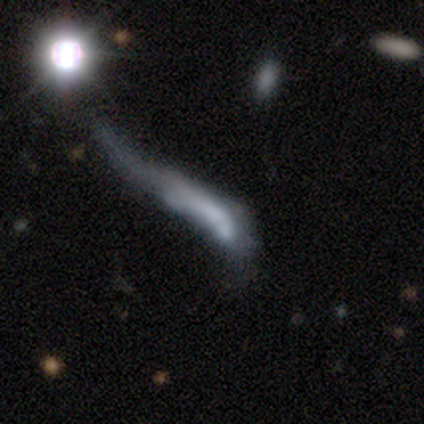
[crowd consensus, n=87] smooth 41%, featured or disk 33%, star or artifact 25%. Down the decision tree: how rounded — cigar-shaped (97%); merging — major disturbance (46%).